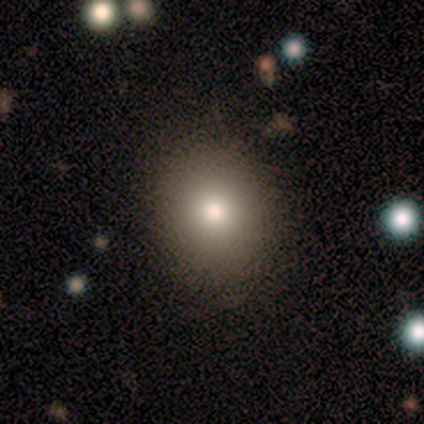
smooth-or-featured: smooth: 73% | star or artifact: 19% | featured or disk: 8%
  how-rounded: round: 70% | in between: 30% | cigar-shaped: 0%
  merging: none: 97% | minor disturbance: 3% | major disturbance: 0% | merger: 0%